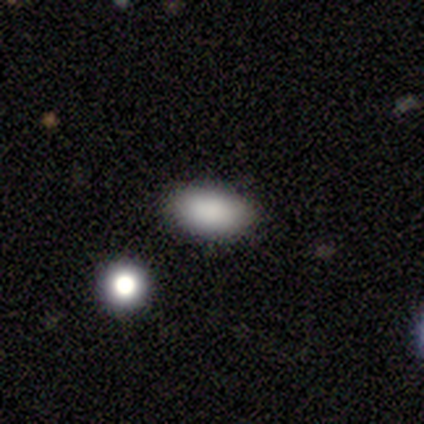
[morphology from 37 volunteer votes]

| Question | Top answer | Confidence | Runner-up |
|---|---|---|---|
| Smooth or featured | smooth | 95% | star or artifact (5%) |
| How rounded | in between | 83% | round (9%) |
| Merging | none | 80% | merger (9%) |